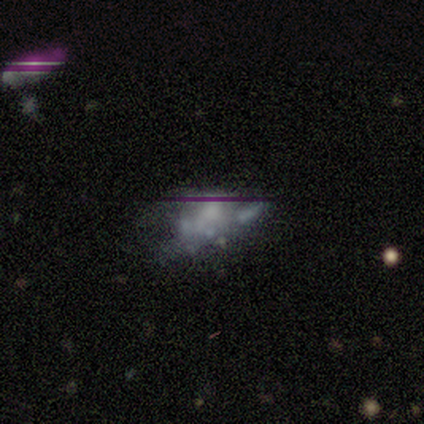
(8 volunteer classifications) Q: Smooth or featured?
A: featured or disk (38%); tied with: star or artifact (38%)
Q: Edge-on disk?
A: no (100%)
Q: Bar?
A: no (100%)
Q: Spiral arms?
A: no (100%)
Q: Bulge size?
A: moderate (33%); tied with: small (33%); none (33%)
Q: Merging?
A: merger (60%); runner-up: none (20%)